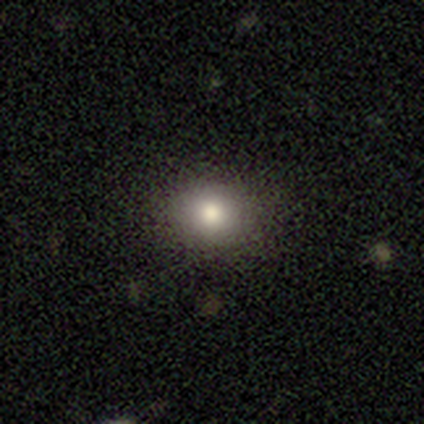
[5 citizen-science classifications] This is marginally a smooth galaxy (40%, tied with featured or disk). How rounded: clearly round (100%). Merging: clearly none (100%).